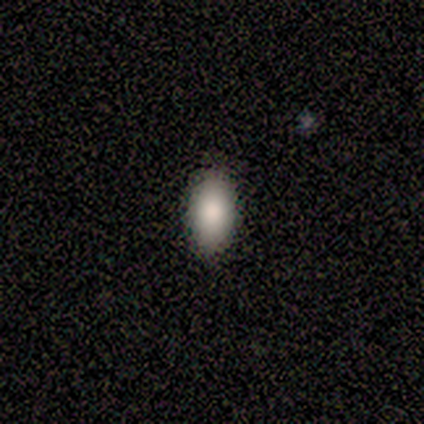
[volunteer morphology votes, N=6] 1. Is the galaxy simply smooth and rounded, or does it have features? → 100% smooth, 0% featured or disk, 0% star or artifact.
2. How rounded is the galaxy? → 100% in between, 0% round, 0% cigar-shaped.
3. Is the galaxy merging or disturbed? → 100% none, 0% minor disturbance, 0% major disturbance, 0% merger.